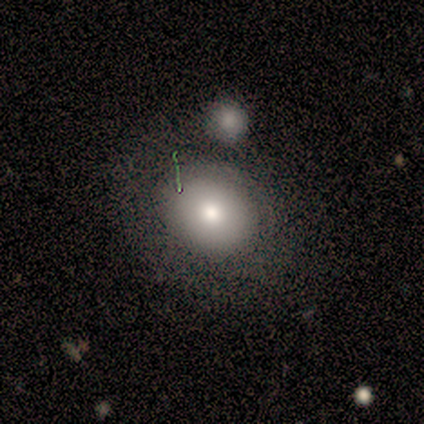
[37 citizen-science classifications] smooth 76%, featured or disk 19%, star or artifact 5%. Down the decision tree: how rounded — round (54%); merging — none (51%).